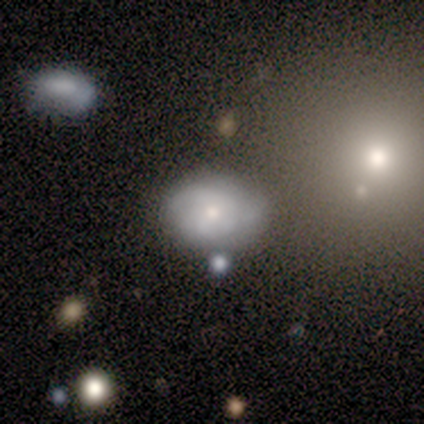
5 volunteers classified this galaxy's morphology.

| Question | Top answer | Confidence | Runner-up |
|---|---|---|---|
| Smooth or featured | smooth | 60% | featured or disk (40%) |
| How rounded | in between | 67% | round (33%) |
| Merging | none | 60% | minor disturbance (40%) |